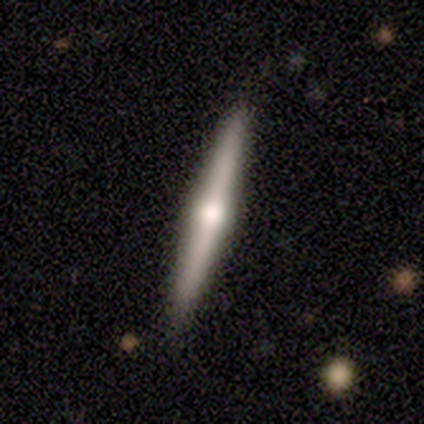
Smooth or featured? 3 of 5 (60%) said smooth. How rounded? 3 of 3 (100%) said cigar-shaped. Merging? 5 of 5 (100%) said none.